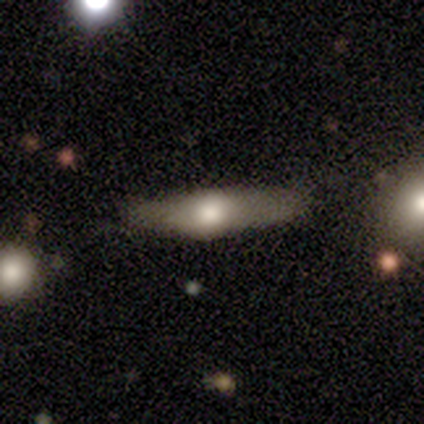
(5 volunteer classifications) Smooth or featured? smooth (60%)
How rounded? cigar-shaped (67%)
Merging? none (80%)